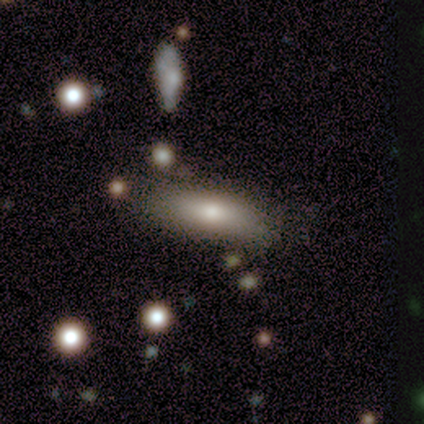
A smooth galaxy with no disk features (83%) that is in between round and cigar-shaped (60%). Merging: none (75%).